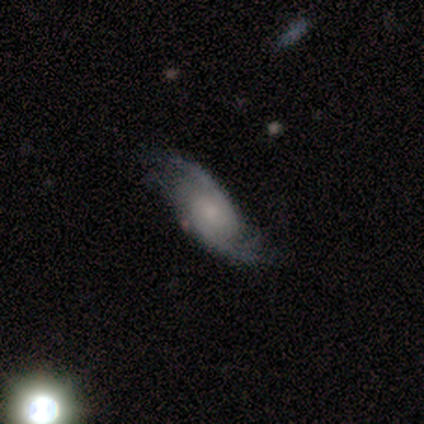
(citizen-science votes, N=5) Smooth or featured? 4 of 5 (80%) said featured or disk. Edge-on disk? 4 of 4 (100%) said no. Bar? 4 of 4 (100%) said no. Spiral arms? 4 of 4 (100%) said yes. Spiral winding? 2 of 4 (50%, tied with loose) said medium. Spiral arm count? 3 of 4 (75%) said 2. Bulge size? 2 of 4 (50%) said moderate. Merging? 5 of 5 (100%) said none.